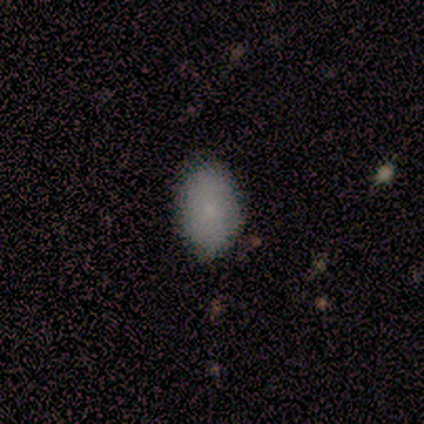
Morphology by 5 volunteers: smooth_or_featured: smooth (p=0.80) [alt: featured or disk p=0.20]
how_rounded: in between (p=1.00)
merging: none (p=0.60) [alt: minor disturbance p=0.40]